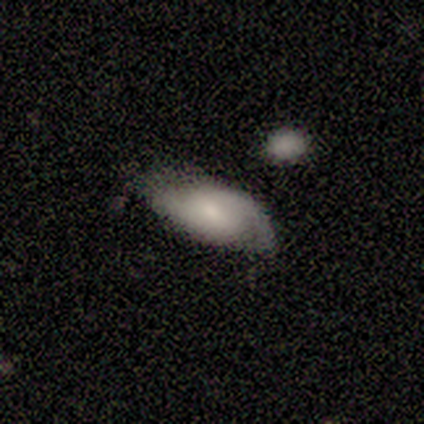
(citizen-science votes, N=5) Smooth or featured? featured or disk (80%)
Edge-on disk? no (75%)
Bar? no (100%)
Spiral arms? yes (100%)
Spiral winding? medium (67%)
Spiral arm count? 2 (67%)
Bulge size? none (67%)
Merging? none (40%, tied with minor disturbance)